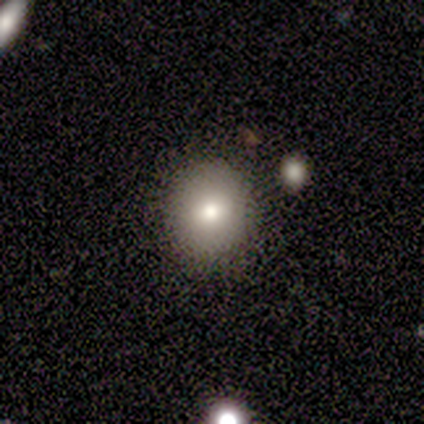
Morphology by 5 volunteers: Smooth or featured?
  - featured or disk: 80% *
  - smooth: 20%
  - star or artifact: 0%
Edge-on disk?
  - no: 75% *
  - yes: 25%
Bar?
  - no: 100% *
  - strong: 0%
  - weak: 0%
Spiral arms?
  - no: 100% *
  - yes: 0%
Bulge size?
  - moderate: 67% *
  - small: 33%
  - dominant: 0%
  - large: 0%
  - none: 0%
Merging?
  - none: 40% *
  - minor disturbance: 20%
  - major disturbance: 20%
  - merger: 20%